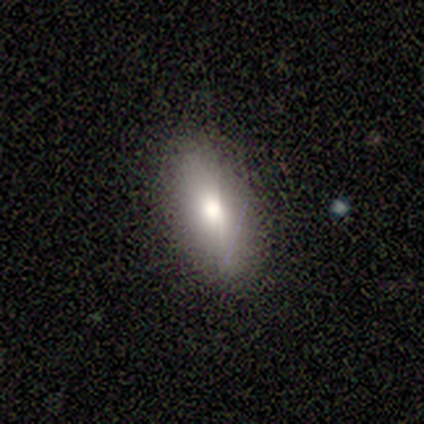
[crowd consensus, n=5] Q: Smooth or featured?
A: smooth (40%); tied with: featured or disk (40%)
Q: How rounded?
A: in between (50%); tied with: cigar-shaped (50%)
Q: Merging?
A: none (50%); tied with: minor disturbance (50%)